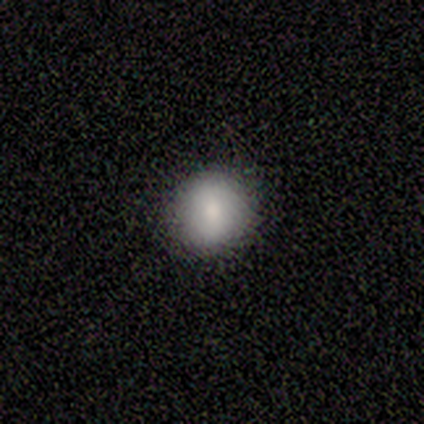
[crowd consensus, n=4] Overall: smooth (100%). How rounded: round (75%). Merging: none (75%).